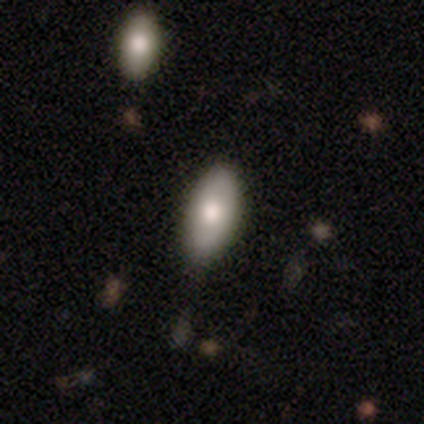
Smooth or featured? smooth (60%)
How rounded? in between (100%)
Merging? none (75%)